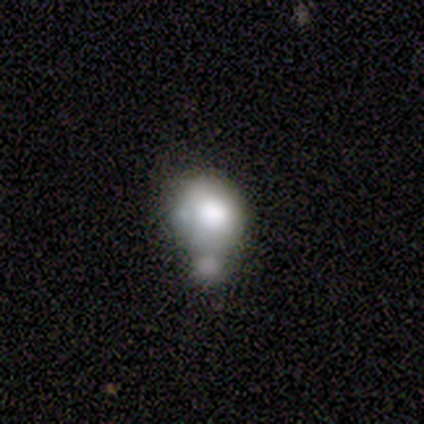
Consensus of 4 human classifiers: This is possibly a smooth galaxy (50%, tied with featured or disk). How rounded: possibly round (50%, tied with in between). Merging: possibly minor disturbance (50%).